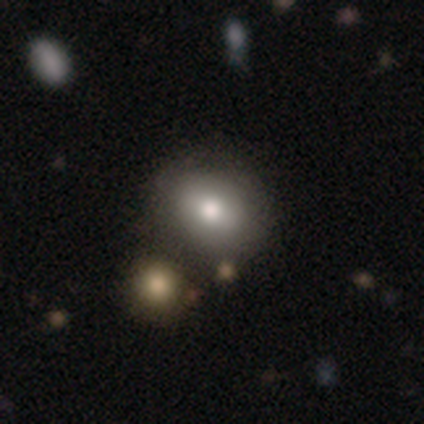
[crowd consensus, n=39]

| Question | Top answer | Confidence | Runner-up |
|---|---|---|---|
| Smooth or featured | smooth | 69% | featured or disk (26%) |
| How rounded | round | 70% | in between (30%) |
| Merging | none | 51% | merger (22%) |